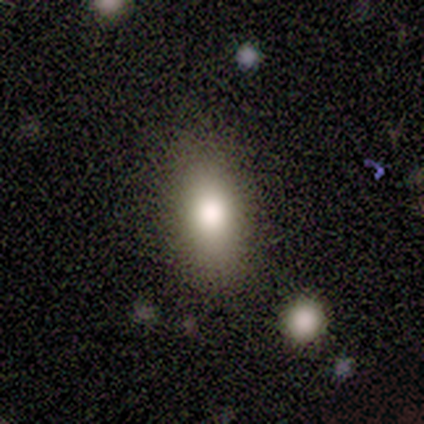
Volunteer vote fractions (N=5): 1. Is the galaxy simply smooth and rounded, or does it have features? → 60% smooth, 20% featured or disk, 20% star or artifact.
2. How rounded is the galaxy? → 100% in between, 0% round, 0% cigar-shaped.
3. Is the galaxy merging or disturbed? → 100% none, 0% minor disturbance, 0% major disturbance, 0% merger.